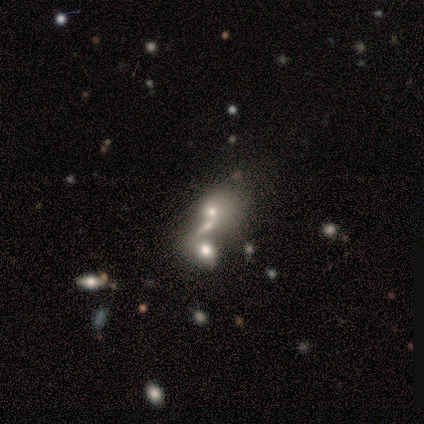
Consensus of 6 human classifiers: Smooth or featured?
  - smooth: 33% * (tied)
  - featured or disk: 33% * (tied)
  - star or artifact: 33% * (tied)
How rounded?
  - round: 100% *
  - in between: 0%
  - cigar-shaped: 0%
Merging?
  - merger: 75% *
  - major disturbance: 25%
  - none: 0%
  - minor disturbance: 0%